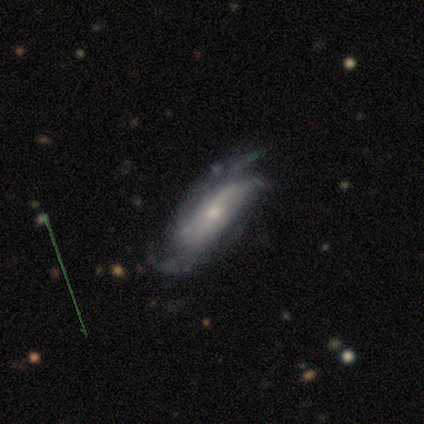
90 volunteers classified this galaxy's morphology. type=featured or disk (78%); edge-on=no (90%); bar=no (63%); spiral arms=yes (90%); winding=tight (39%); arm count=can't tell (39%); bulge=small (76%); merging=none (61%).